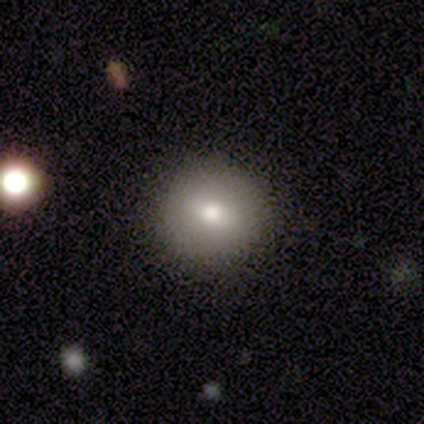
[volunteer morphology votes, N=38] A smooth galaxy with no disk features (76%) that is round (93%).

Vote fractions:
- Smooth or featured? smooth: 76% / featured or disk: 21% / star or artifact: 3%
- How rounded? round: 93% / in between: 7% / cigar-shaped: 0%
- Merging? none: 92% / minor disturbance: 5% / merger: 3% / major disturbance: 0%